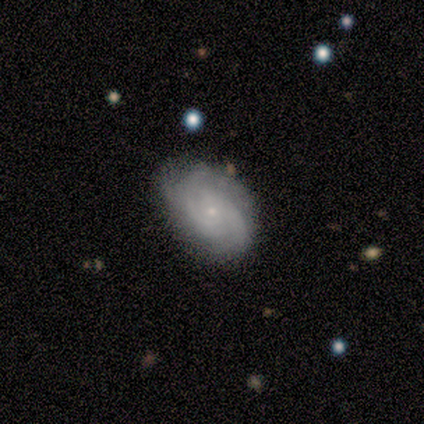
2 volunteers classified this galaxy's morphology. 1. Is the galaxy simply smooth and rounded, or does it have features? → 100% featured or disk, 0% smooth, 0% star or artifact.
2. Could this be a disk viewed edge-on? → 100% no, 0% yes.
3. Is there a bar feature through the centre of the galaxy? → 100% no, 0% strong, 0% weak.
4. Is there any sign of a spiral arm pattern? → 100% yes, 0% no.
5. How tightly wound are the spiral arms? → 50% tight (tied), 50% medium (tied), 0% loose.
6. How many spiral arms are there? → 50% 2 (tied), 50% can't tell (tied), 0% 1, 0% 3, 0% 4, 0% more than 4.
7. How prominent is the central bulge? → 100% small, 0% dominant, 0% large, 0% moderate, 0% none.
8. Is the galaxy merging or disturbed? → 100% none, 0% minor disturbance, 0% major disturbance, 0% merger.